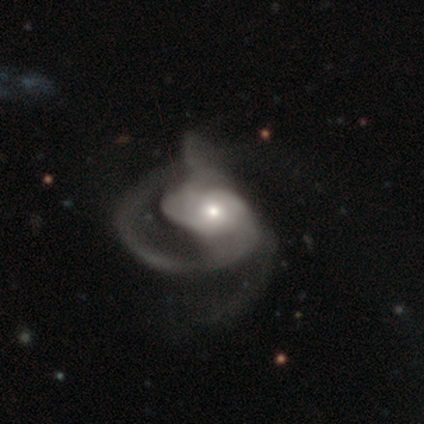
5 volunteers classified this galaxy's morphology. Smooth or featured? featured or disk (100%)
Edge-on disk? no (100%)
Bar? strong (40%, tied with no)
Spiral arms? yes (100%)
Spiral winding? loose (60%)
Spiral arm count? 1 (40%, tied with 2)
Bulge size? small (60%)
Merging? major disturbance (80%)